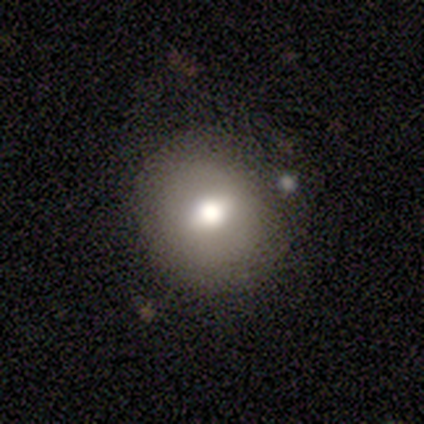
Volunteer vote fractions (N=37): Q: Smooth or featured?
A: smooth (65%); runner-up: featured or disk (24%)
Q: How rounded?
A: round (88%); runner-up: in between (12%)
Q: Merging?
A: none (70%); runner-up: minor disturbance (15%)